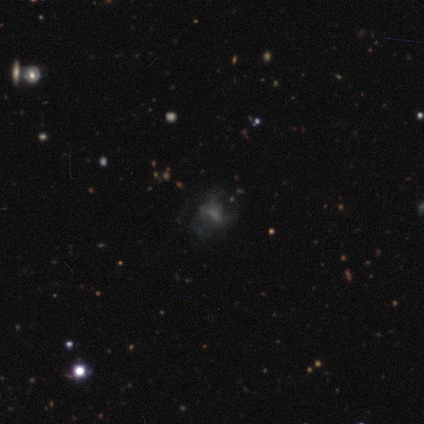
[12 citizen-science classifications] A featured or disk galaxy (50%) with no bar (67%), loose (67%) spiral arms (50%, tied with no) and no central bulge (50%).

Vote fractions:
- Smooth or featured? featured or disk: 50% / star or artifact: 33% / smooth: 17%
- Edge-on disk? no: 100% / yes: 0%
- Bar? no: 67% / weak: 33% / strong: 0%
- Spiral arms? yes: 50% (tied) / no: 50% (tied)
- Spiral winding? loose: 67% / tight: 33% / medium: 0%
- Spiral arm count? can't tell: 67% / 3: 33% / 1: 0% / 2: 0% / 4: 0% / more than 4: 0%
- Bulge size? none: 50% / moderate: 33% / small: 17% / dominant: 0% / large: 0%
- Merging? none: 50% (tied) / minor disturbance: 50% (tied) / major disturbance: 0% / merger: 0%